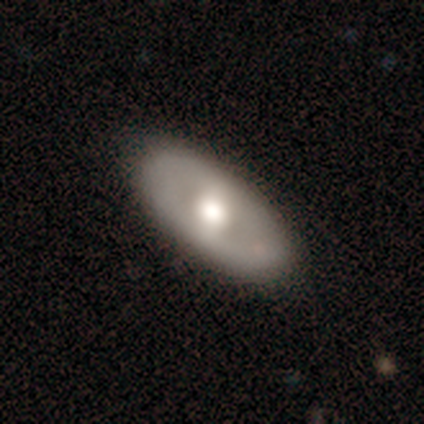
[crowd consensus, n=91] A featured or disk galaxy (52%) with no bar (57%), no spiral arms (89%) and a moderate central bulge (66%). Merging: none (87%).